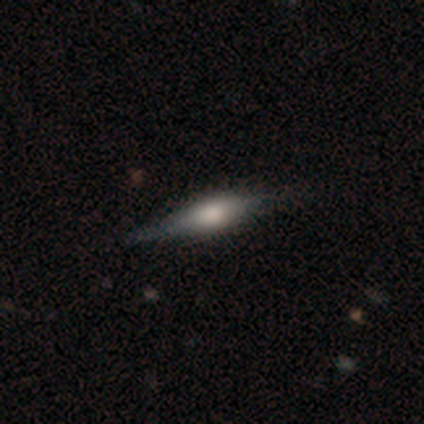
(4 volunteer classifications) Q: Smooth or featured?
A: featured or disk (50%); runner-up: smooth (25%)
Q: Edge-on disk?
A: yes (100%)
Q: Edge-on bulge?
A: rounded (100%)
Q: Merging?
A: none (100%)